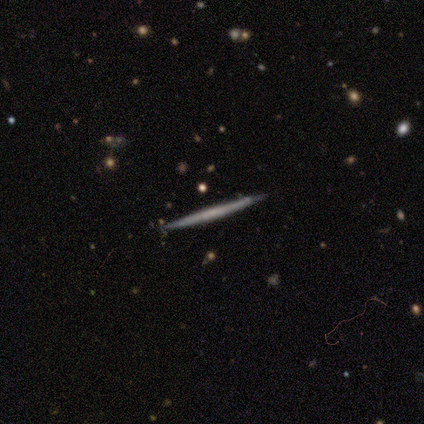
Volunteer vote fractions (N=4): A featured or disk galaxy (75%) viewed edge-on (100%) with no central bulge (100%). Merging: none (75%).